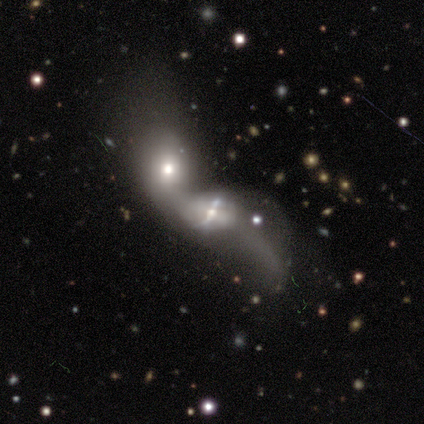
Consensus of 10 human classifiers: Smooth or featured? featured or disk (90%)
Edge-on disk? no (100%)
Bar? no (56%)
Spiral arms? no (56%)
Bulge size? small (56%)
Merging? merger (100%)